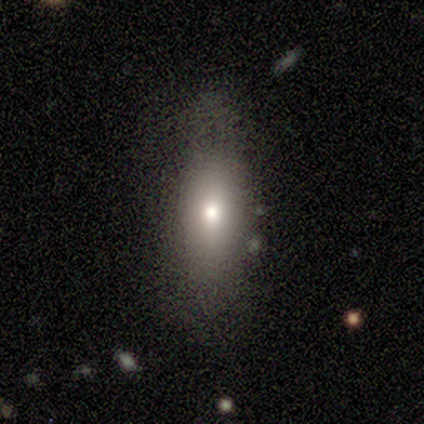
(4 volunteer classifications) Overall: smooth (100%). How rounded: in between (75%). Merging: none (100%).